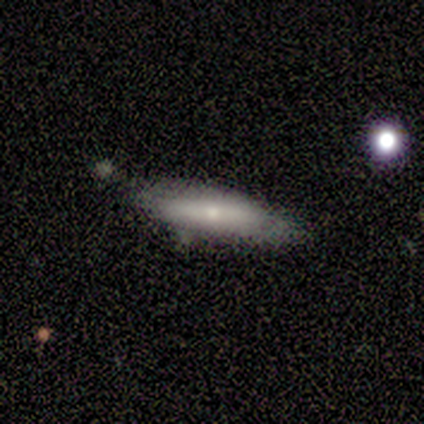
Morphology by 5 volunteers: type=smooth (80%); roundness=cigar-shaped (100%); merging=none (100%).